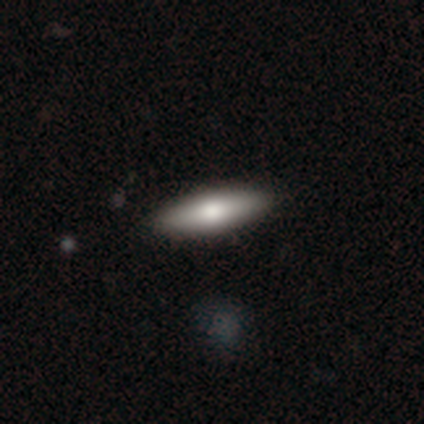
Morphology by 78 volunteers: type=smooth (82%); roundness=in between (52%); merging=none (44%).